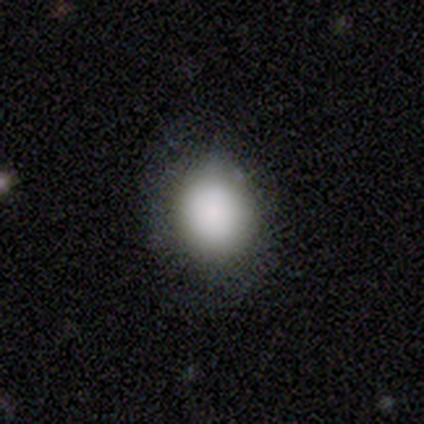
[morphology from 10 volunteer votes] This is clearly a smooth galaxy (80%). How rounded: likely round (62%). Merging: likely none (60%).